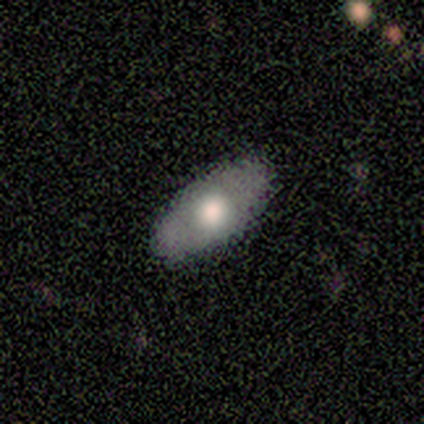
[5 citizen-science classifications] smooth-or-featured: smooth: 60% | featured or disk: 40% | star or artifact: 0%
  how-rounded: in between: 100% | round: 0% | cigar-shaped: 0%
  merging: none: 60% | minor disturbance: 40% | major disturbance: 0% | merger: 0%